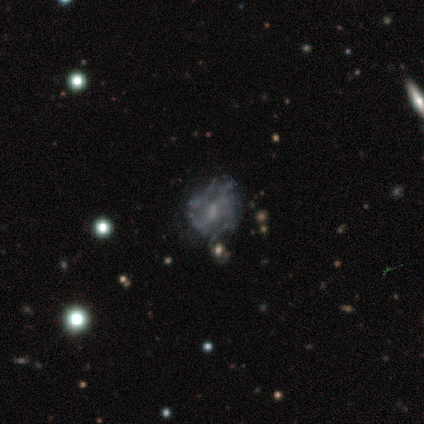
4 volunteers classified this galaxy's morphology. Smooth or featured?
  - featured or disk: 75% *
  - star or artifact: 25%
  - smooth: 0%
Edge-on disk?
  - no: 100% *
  - yes: 0%
Bar?
  - weak: 67% *
  - no: 33%
  - strong: 0%
Spiral arms?
  - yes: 67% *
  - no: 33%
Spiral winding?
  - loose: 100% *
  - tight: 0%
  - medium: 0%
Spiral arm count?
  - 4: 50% * (tied)
  - can't tell: 50% * (tied)
  - 1: 0%
  - 2: 0%
  - 3: 0%
  - more than 4: 0%
Bulge size?
  - moderate: 67% *
  - small: 33%
  - dominant: 0%
  - large: 0%
  - none: 0%
Merging?
  - minor disturbance: 67% *
  - none: 33%
  - major disturbance: 0%
  - merger: 0%